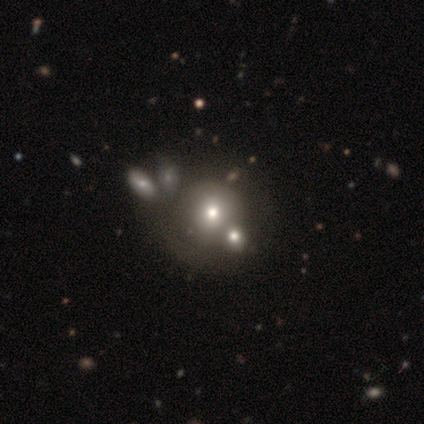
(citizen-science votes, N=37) smooth-or-featured: smooth: 49% | featured or disk: 35% | star or artifact: 16%
  how-rounded: round: 94% | in between: 6% | cigar-shaped: 0%
  merging: none: 32% | merger: 29% | minor disturbance: 23% | major disturbance: 16%